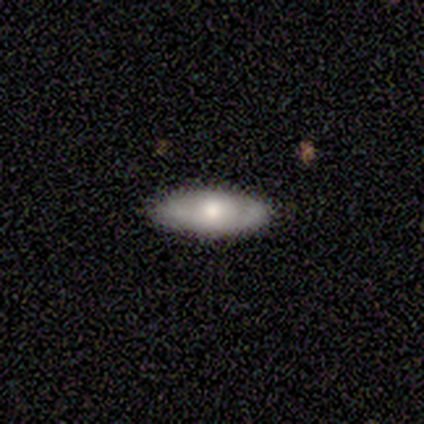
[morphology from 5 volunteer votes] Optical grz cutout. It shows a smooth galaxy with no disk features (60%) that is in between round and cigar-shaped (100%). Merging: none (80%).